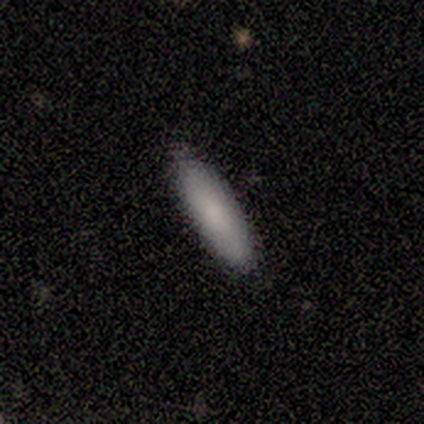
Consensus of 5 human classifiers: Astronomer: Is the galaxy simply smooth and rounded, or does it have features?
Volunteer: smooth — 80%.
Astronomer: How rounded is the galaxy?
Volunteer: in between — 50%, tied with cigar-shaped at 50%.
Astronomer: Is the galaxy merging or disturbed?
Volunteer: none — 80%.